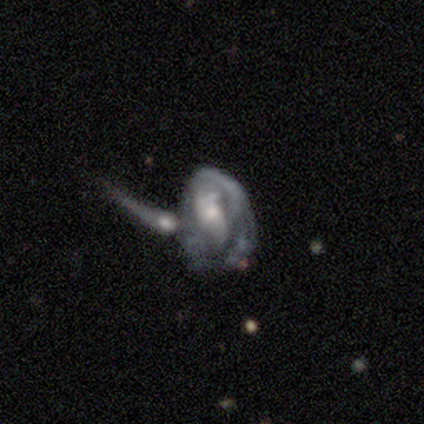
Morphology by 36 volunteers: Smooth or featured?
  - featured or disk: 83% *
  - smooth: 8%
  - star or artifact: 8%
Edge-on disk?
  - no: 97% *
  - yes: 3%
Bar?
  - no: 59% *
  - weak: 34%
  - strong: 7%
Spiral arms?
  - yes: 66% *
  - no: 34%
Spiral winding?
  - tight: 58% *
  - medium: 21%
  - loose: 21%
Spiral arm count?
  - can't tell: 47% *
  - 2: 32%
  - 1: 11%
  - 3: 5%
  - 4: 5%
  - more than 4: 0%
Bulge size?
  - moderate: 48% *
  - small: 38%
  - large: 10%
  - none: 3%
  - dominant: 0%
Merging?
  - merger: 64% *
  - major disturbance: 18%
  - none: 9%
  - minor disturbance: 9%